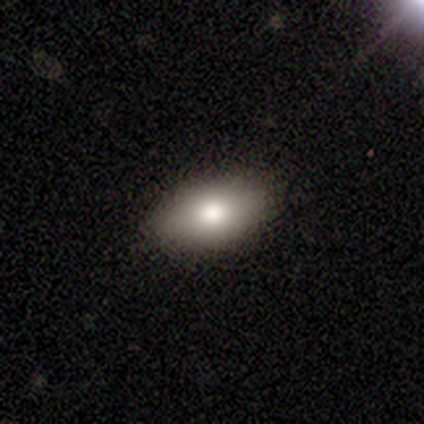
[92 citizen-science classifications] Smooth or featured?
  - smooth: 83% *
  - featured or disk: 12%
  - star or artifact: 5%
How rounded?
  - in between: 89% *
  - round: 9%
  - cigar-shaped: 1%
Merging?
  - none: 87% *
  - minor disturbance: 10%
  - major disturbance: 2%
  - merger: 0%